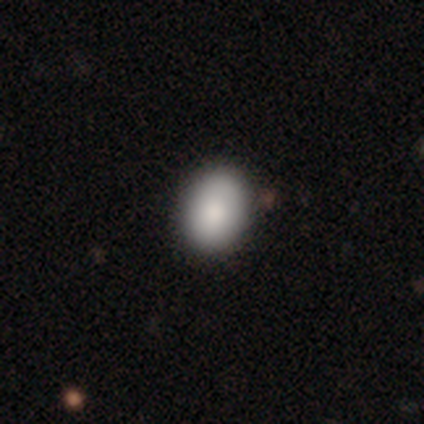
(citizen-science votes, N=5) This is clearly a smooth galaxy (80%). How rounded: likely in between (75%). Merging: clearly none (100%).